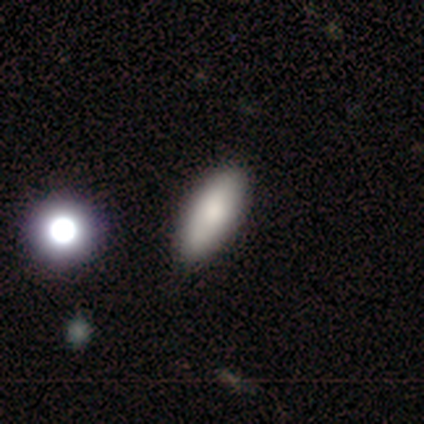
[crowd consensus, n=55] Smooth or featured? smooth (84%)
How rounded? in between (85%)
Merging? none (88%)